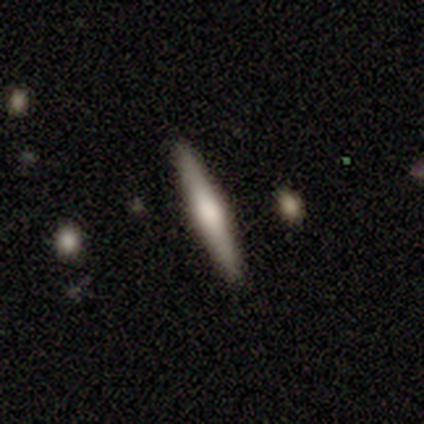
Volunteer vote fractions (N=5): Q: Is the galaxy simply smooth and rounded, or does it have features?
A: featured or disk — 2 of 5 (40%, tied with star or artifact).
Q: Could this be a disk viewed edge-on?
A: yes — 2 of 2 (100%).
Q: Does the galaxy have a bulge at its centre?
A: rounded — 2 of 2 (100%).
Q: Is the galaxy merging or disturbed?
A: none — 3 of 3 (100%).